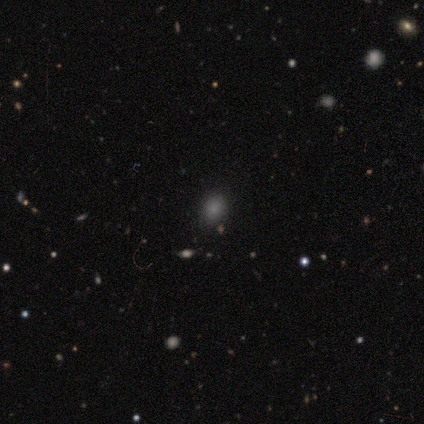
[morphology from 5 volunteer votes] A smooth galaxy with no disk features (100%) that is in between round and cigar-shaped (60%). Merging: none (100%).